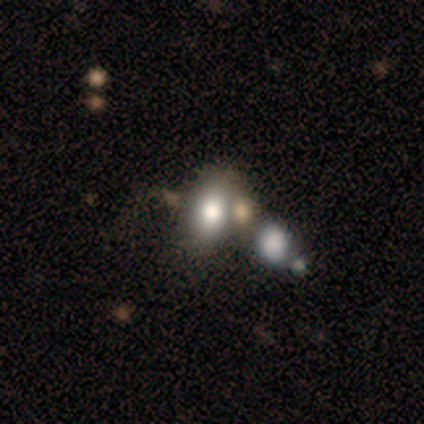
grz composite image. It shows a smooth galaxy with no disk features (72%) that is in between round and cigar-shaped (79%). Merging: merger (46%).